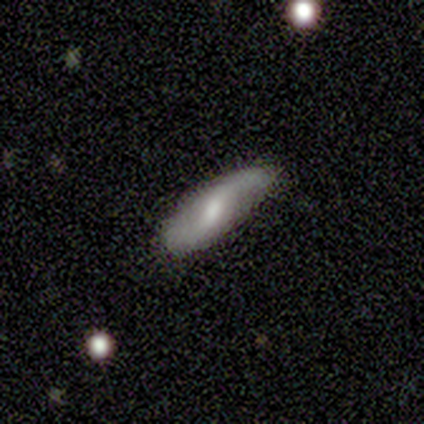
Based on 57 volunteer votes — Smooth or featured? featured or disk (67%)
Edge-on disk? no (84%)
Bar? weak (62%)
Spiral arms? yes (91%)
Spiral winding? loose (83%)
Spiral arm count? 2 (97%)
Bulge size? moderate (59%)
Merging? none (64%)